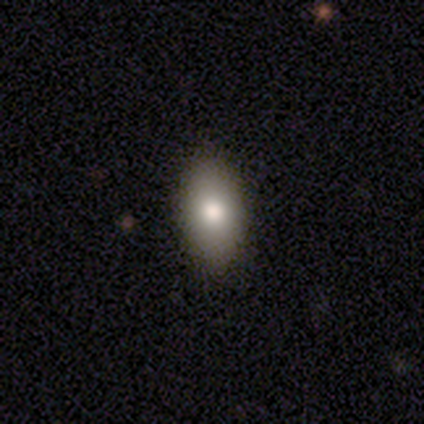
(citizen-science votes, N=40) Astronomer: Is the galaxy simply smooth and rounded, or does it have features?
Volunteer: smooth — 80%.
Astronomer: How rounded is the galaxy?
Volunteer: in between — 94%.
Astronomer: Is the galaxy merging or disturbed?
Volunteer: none — 92%.